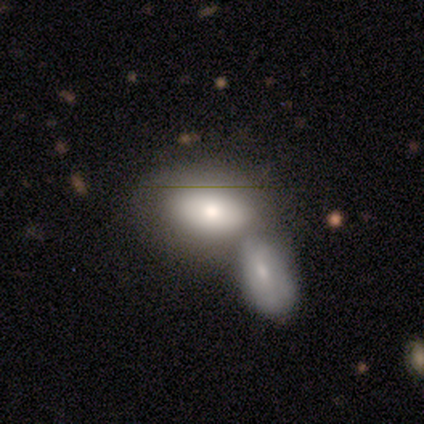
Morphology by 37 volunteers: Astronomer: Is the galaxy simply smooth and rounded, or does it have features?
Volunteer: smooth — 62%.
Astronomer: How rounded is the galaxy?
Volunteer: in between — 91%.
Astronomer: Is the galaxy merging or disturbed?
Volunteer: merger — 74%.